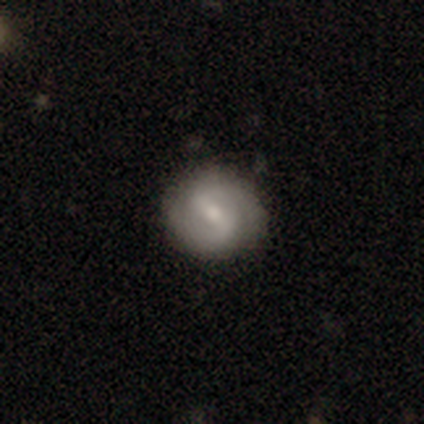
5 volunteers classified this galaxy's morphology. smooth_or_featured: featured or disk (p=0.80) [alt: smooth p=0.20]
disk_edge_on: no (p=1.00)
bar: weak (p=1.00)
has_spiral_arms: yes (p=1.00)
spiral_winding: medium (p=0.75) [alt: tight p=0.25]
spiral_arm_count: 2 (p=0.75) [alt: can't tell p=0.25]
bulge_size: small (p=0.50) [alt: moderate p=0.25]
merging: none (p=1.00)